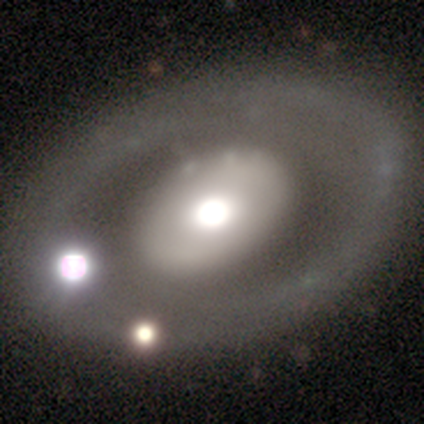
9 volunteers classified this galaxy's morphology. Smooth or featured?
  - featured or disk: 56% *
  - smooth: 33%
  - star or artifact: 11%
Edge-on disk?
  - no: 100% *
  - yes: 0%
Bar?
  - no: 100% *
  - strong: 0%
  - weak: 0%
Spiral arms?
  - no: 100% *
  - yes: 0%
Bulge size?
  - moderate: 80% *
  - large: 20%
  - dominant: 0%
  - small: 0%
  - none: 0%
Merging?
  - none: 88% *
  - minor disturbance: 12%
  - major disturbance: 0%
  - merger: 0%